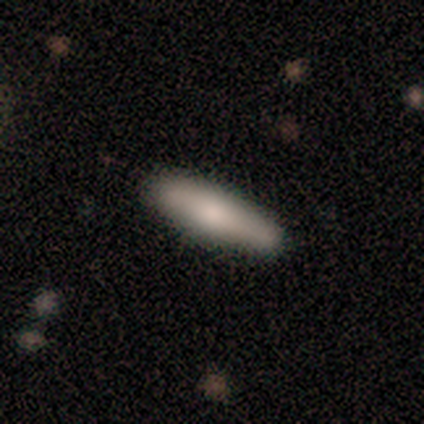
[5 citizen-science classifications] Volunteers were most divided on "smooth or featured": smooth: 60%, featured or disk: 40%, star or artifact: 0%. More confident: how rounded — cigar-shaped (100%); merging — none (100%).